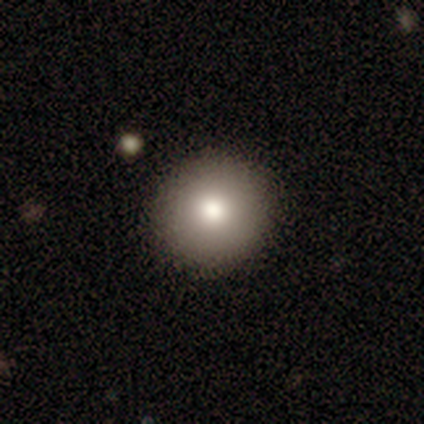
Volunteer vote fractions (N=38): This is clearly a smooth galaxy (84%). How rounded: clearly round (91%). Merging: clearly none (94%).